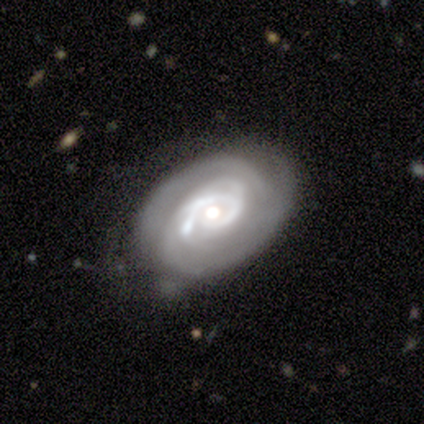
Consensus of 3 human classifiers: featured or disk 100%, smooth 0%, star or artifact 0%. Down the decision tree: edge-on disk — no (100%); bar — no (100%); spiral arms — yes (100%); spiral arm count — 2 (67%); spiral winding — tight (67%); bulge size — moderate (67%); merging — minor disturbance (67%).